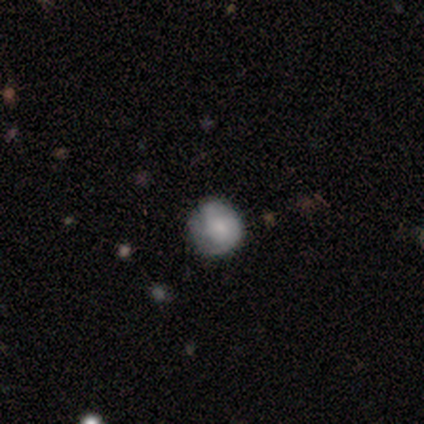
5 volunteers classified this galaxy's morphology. smooth_or_featured: featured or disk (p=0.60) [alt: smooth p=0.40]
disk_edge_on: no (p=1.00)
bar: no (p=1.00)
has_spiral_arms: yes (p=0.67) [alt: no p=0.33]
spiral_winding: tight (p=1.00)
spiral_arm_count: 2 (p=0.50) [tied with: 3 p=0.50]
bulge_size: moderate (p=0.67) [alt: small p=0.33]
merging: none (p=1.00)